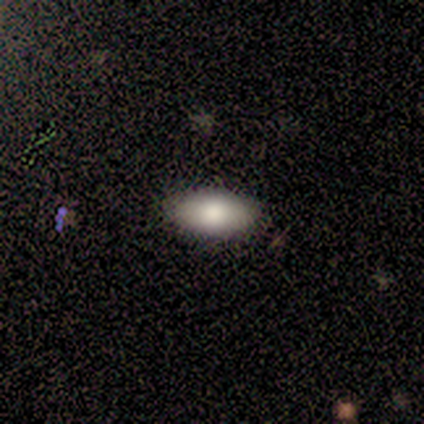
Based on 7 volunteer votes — Volunteers were most divided on "smooth or featured": smooth: 57%, featured or disk: 43%, star or artifact: 0%. More confident: how rounded — in between (100%); merging — none (100%).